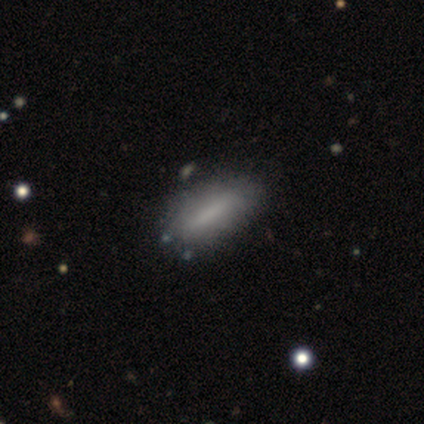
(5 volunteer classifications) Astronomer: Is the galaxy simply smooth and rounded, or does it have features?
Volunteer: smooth — 100%.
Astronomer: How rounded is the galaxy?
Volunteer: cigar-shaped — 60% (runner-up: in between, 40%).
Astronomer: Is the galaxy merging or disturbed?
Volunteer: minor disturbance — 60% (runner-up: none, 40%).